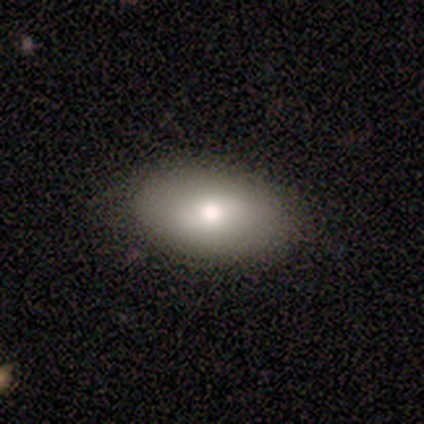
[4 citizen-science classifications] This is possibly a smooth galaxy (50%, tied with featured or disk). How rounded: possibly round (50%, tied with in between). Merging: clearly none (100%).